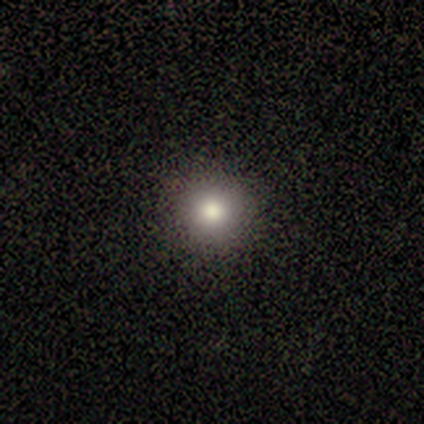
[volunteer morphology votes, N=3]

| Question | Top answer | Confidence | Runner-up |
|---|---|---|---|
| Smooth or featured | smooth | 100% | — |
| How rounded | round | 100% | — |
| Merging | none | 100% | — |